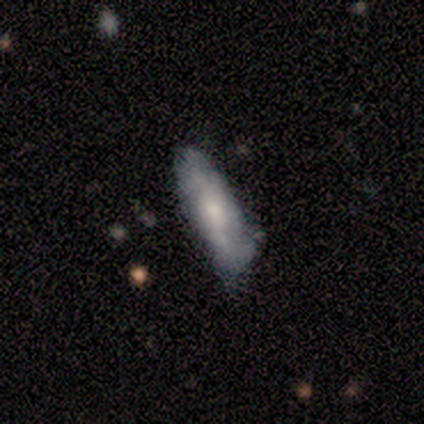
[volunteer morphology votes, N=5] Smooth or featured?
  - smooth: 60% *
  - featured or disk: 20%
  - star or artifact: 20%
How rounded?
  - in between: 67% *
  - cigar-shaped: 33%
  - round: 0%
Merging?
  - none: 75% *
  - minor disturbance: 25%
  - major disturbance: 0%
  - merger: 0%